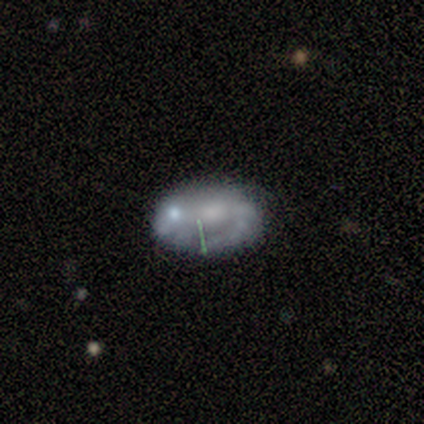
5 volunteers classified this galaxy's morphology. smooth_or_featured: featured or disk (p=0.60) [alt: smooth p=0.40]
disk_edge_on: no (p=1.00)
bar: no (p=1.00)
has_spiral_arms: no (p=0.67) [alt: yes p=0.33]
bulge_size: none (p=0.67) [alt: large p=0.33]
merging: none (p=0.40) [tied with: minor disturbance p=0.40]